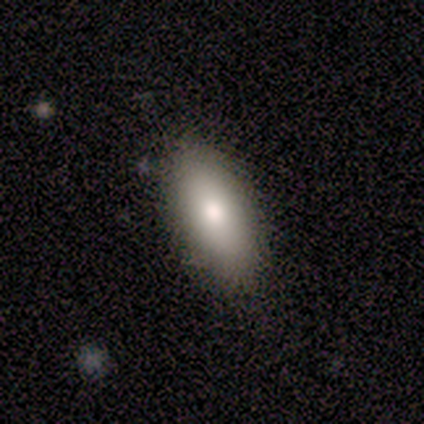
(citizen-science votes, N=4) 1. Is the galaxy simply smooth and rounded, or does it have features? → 50% featured or disk, 25% smooth, 25% star or artifact.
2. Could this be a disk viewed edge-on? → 100% no, 0% yes.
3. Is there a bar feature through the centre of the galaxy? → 50% weak (tied), 50% no (tied), 0% strong.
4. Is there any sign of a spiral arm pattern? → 100% no, 0% yes.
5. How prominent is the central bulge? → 100% moderate, 0% dominant, 0% large, 0% small, 0% none.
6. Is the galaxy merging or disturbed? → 100% none, 0% minor disturbance, 0% major disturbance, 0% merger.